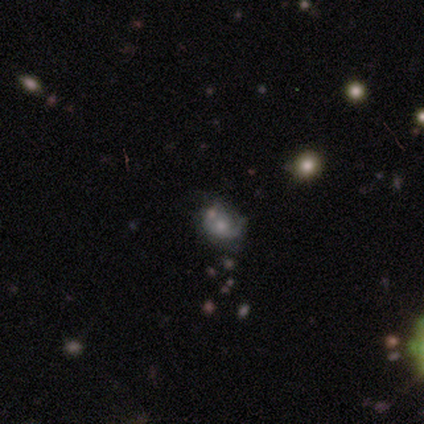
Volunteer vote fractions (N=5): A star or artifact, not a galaxy (60%).

Vote fractions:
- Smooth or featured? star or artifact: 60% / featured or disk: 40% / smooth: 0%